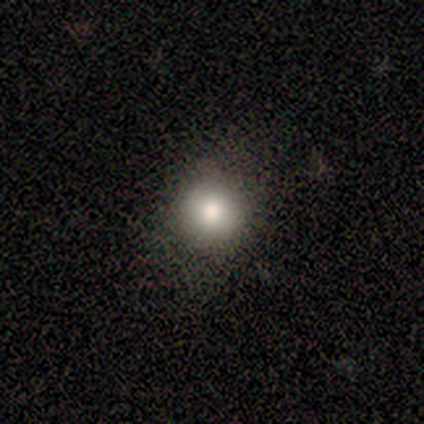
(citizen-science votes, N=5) Volunteers were most divided on "smooth or featured": smooth: 60%, featured or disk: 20%, star or artifact: 20%. More confident: how rounded — round (100%); merging — none (100%).